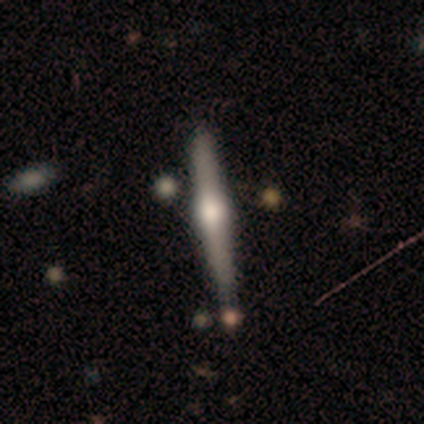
This appears to be a featured or disk galaxy (100%) viewed edge-on (100%) with a rounded central bulge (100%). Merging: none (40%, tied with minor disturbance).